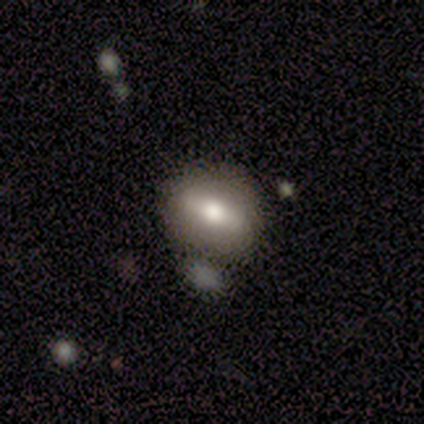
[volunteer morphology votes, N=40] smooth 57%, featured or disk 30%, star or artifact 12%. Down the decision tree: how rounded — in between (57%); merging — none (66%).